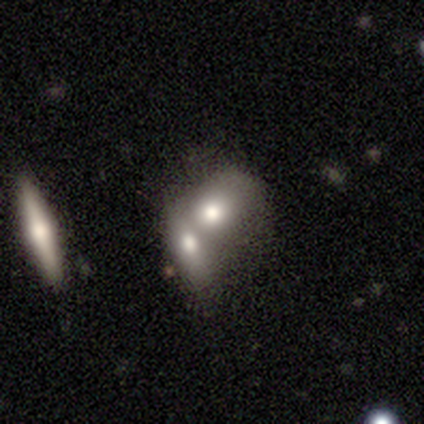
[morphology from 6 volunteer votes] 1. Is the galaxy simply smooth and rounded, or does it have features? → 50% smooth, 33% featured or disk, 17% star or artifact.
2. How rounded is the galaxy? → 67% in between, 33% round, 0% cigar-shaped.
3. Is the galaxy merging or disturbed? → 80% merger, 20% none, 0% minor disturbance, 0% major disturbance.